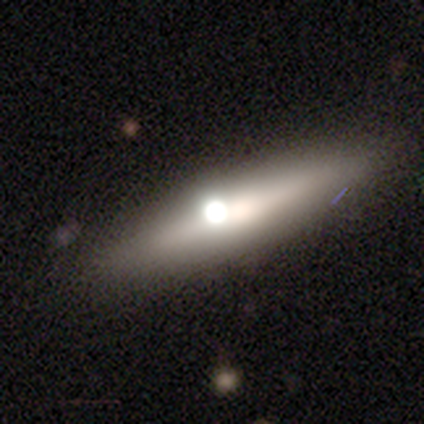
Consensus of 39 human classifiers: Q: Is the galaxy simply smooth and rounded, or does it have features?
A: featured or disk — 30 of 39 (77%).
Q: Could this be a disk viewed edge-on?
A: yes — 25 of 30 (83%).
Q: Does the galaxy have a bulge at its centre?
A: rounded — 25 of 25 (100%).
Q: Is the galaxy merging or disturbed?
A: none — 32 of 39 (82%).